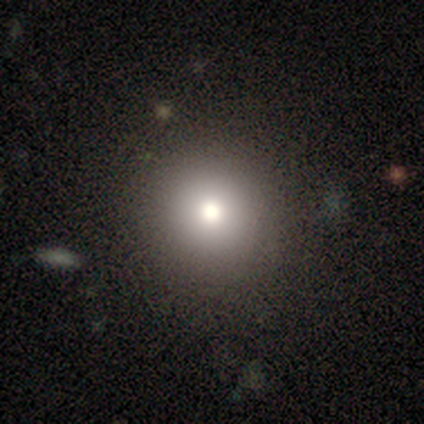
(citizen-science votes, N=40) smooth_or_featured: smooth (p=0.70) [alt: star or artifact p=0.25]
how_rounded: round (p=0.96) [alt: in between p=0.04]
merging: none (p=0.80) [alt: minor disturbance p=0.17]